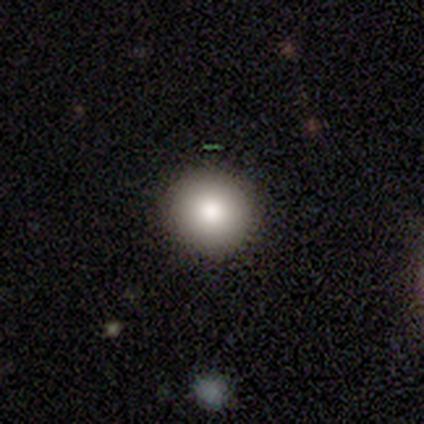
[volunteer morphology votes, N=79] A smooth galaxy with no disk features (89%) that is round (97%).

Vote fractions:
- Smooth or featured? smooth: 89% / featured or disk: 9% / star or artifact: 3%
- How rounded? round: 97% / in between: 3% / cigar-shaped: 0%
- Merging? none: 51% / minor disturbance: 1% / major disturbance: 0% / merger: 0%